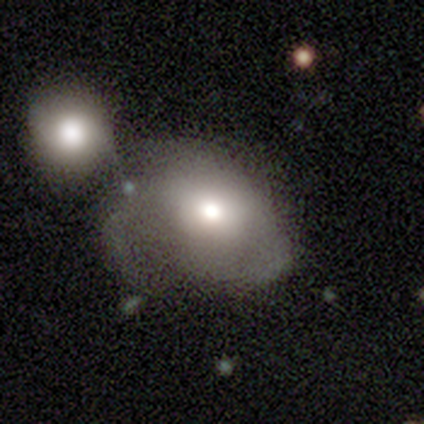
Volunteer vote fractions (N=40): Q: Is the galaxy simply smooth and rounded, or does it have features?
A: smooth — 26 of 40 (65%).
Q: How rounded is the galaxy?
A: in between — 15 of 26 (58%).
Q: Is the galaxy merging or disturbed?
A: minor disturbance — 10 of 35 (29%, tied with merger).